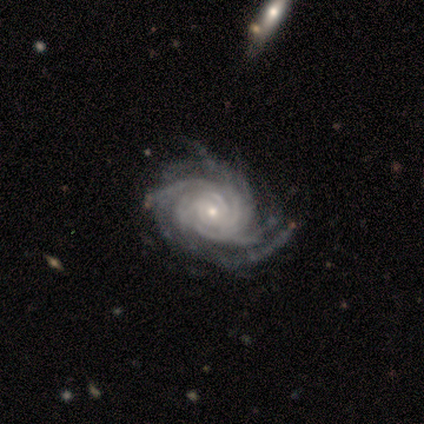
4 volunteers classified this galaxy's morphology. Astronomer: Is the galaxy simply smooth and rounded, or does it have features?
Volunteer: featured or disk — 100%.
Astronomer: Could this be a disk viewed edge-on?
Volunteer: no — 100%.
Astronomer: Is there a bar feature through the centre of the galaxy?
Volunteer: no — 75%.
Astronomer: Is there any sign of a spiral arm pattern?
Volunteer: yes — 100%.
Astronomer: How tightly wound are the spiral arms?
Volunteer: tight — 100%.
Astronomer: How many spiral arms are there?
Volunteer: more than 4 — 50%.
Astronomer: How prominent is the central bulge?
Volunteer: small — 75%.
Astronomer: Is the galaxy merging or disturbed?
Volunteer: none — 75%.